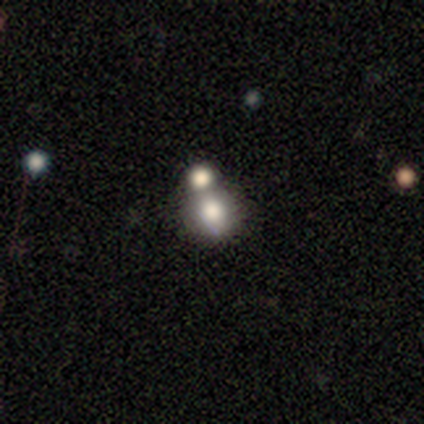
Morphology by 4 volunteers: Smooth or featured: smooth — 75% (star or artifact — 25%)
How rounded: round — 100%
Merging: none — 67% (merger — 33%)